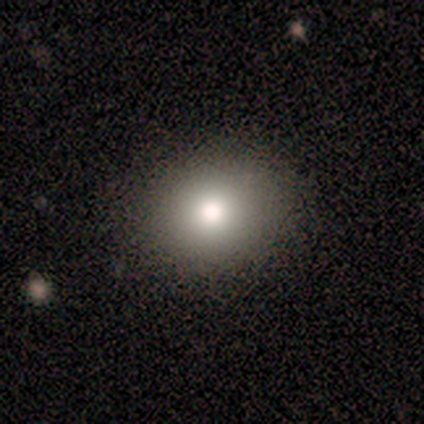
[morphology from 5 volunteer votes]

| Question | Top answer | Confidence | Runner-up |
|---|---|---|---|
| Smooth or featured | smooth | 100% | — |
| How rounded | round | 60% | in between (40%) |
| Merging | none | 100% | — |